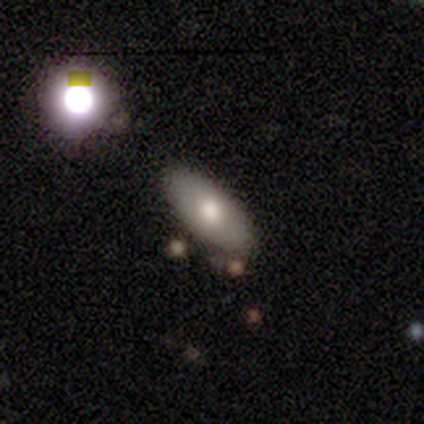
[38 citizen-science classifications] smooth-or-featured: smooth: 68% | featured or disk: 18% | star or artifact: 13%
  how-rounded: in between: 88% | cigar-shaped: 12% | round: 0%
  merging: none: 88% | minor disturbance: 9% | merger: 3% | major disturbance: 0%